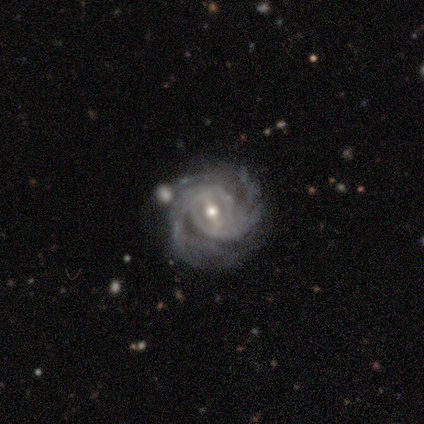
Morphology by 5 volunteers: featured or disk 100%, smooth 0%, star or artifact 0%. Down the decision tree: edge-on disk — no (100%); bar — strong (40%, tied with weak); spiral arms — yes (100%); spiral arm count — 2 (80%); spiral winding — medium (60%); bulge size — small (60%); merging — none (60%).